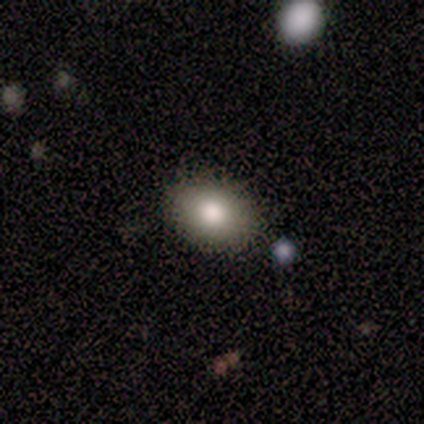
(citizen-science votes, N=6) Volunteers were most divided on "how rounded": in between: 80%, round: 20%, cigar-shaped: 0%. More confident: merging — none (100%); smooth or featured — smooth (83%).